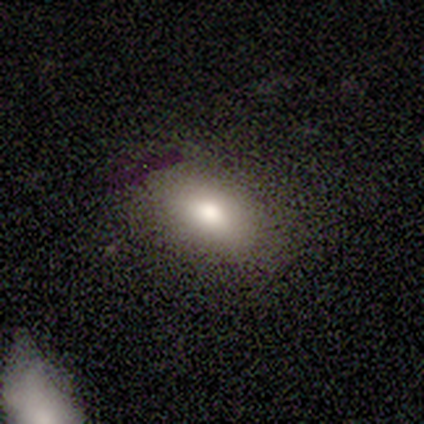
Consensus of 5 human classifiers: This is clearly a smooth galaxy (80%). How rounded: likely in between (75%). Merging: clearly none (100%).